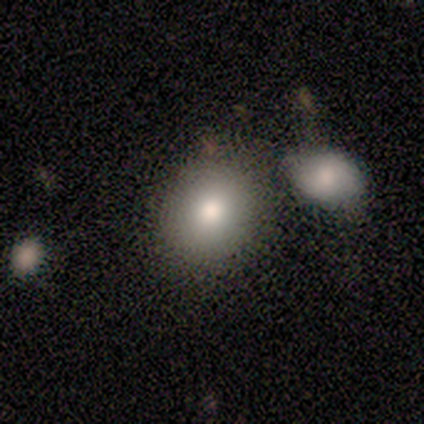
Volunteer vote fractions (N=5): smooth-or-featured: smooth: 60% | featured or disk: 20% | star or artifact: 20%
  how-rounded: round: 67% | in between: 33% | cigar-shaped: 0%
  merging: none: 75% | merger: 25% | minor disturbance: 0% | major disturbance: 0%